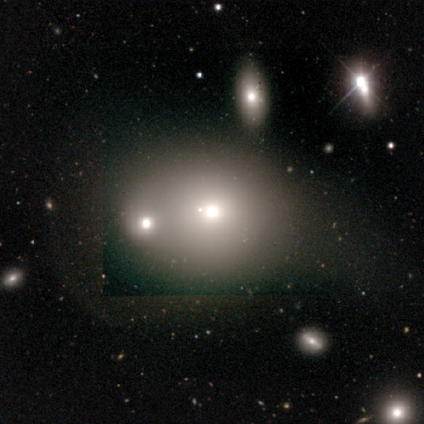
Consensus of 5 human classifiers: This appears to be a smooth galaxy with no disk features (60%) that is round (100%). Merging: merger (50%).